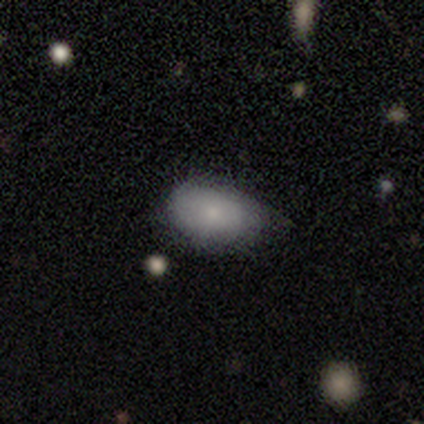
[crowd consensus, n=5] Smooth or featured? smooth (80%)
How rounded? in between (100%)
Merging? minor disturbance (60%)